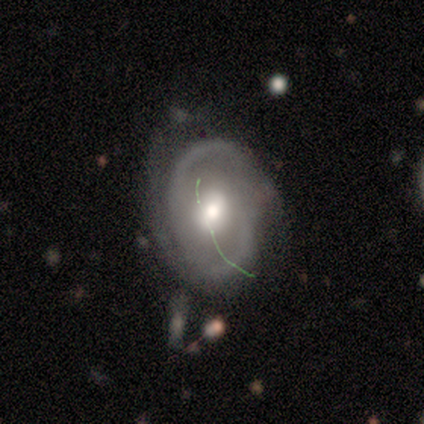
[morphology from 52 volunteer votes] Volunteers were most divided on "spiral winding": tight: 41%, medium: 34%, loose: 25%. More confident: edge-on disk — no (98%); spiral arm count — 2 (81%); spiral arms — yes (80%); smooth or featured — featured or disk (79%); bulge size — moderate (75%); merging — none (62%); bar — weak (52%).